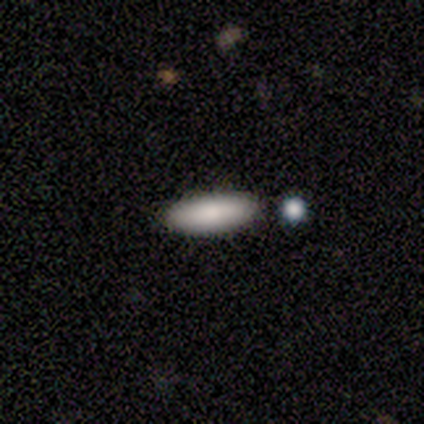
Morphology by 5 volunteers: Overall: smooth (100%). How rounded: in between (80%). Merging: none (100%).